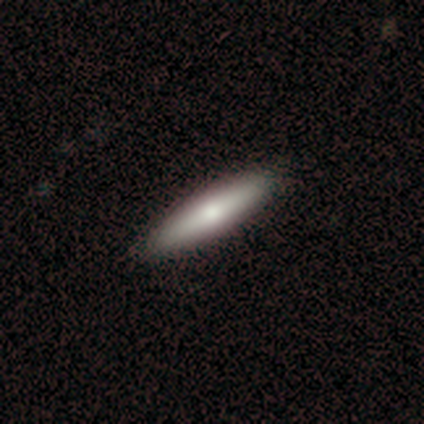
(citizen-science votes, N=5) Q: Smooth or featured?
A: smooth (60%); runner-up: featured or disk (40%)
Q: How rounded?
A: cigar-shaped (67%); runner-up: in between (33%)
Q: Merging?
A: none (80%); runner-up: minor disturbance (20%)